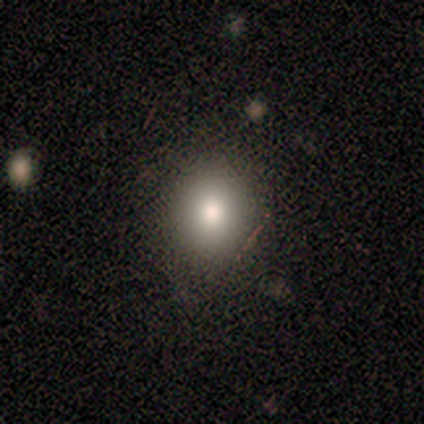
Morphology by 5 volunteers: Volunteers were most divided on "smooth or featured": smooth: 60%, featured or disk: 40%, star or artifact: 0%. More confident: how rounded — round (100%); merging — none (100%).